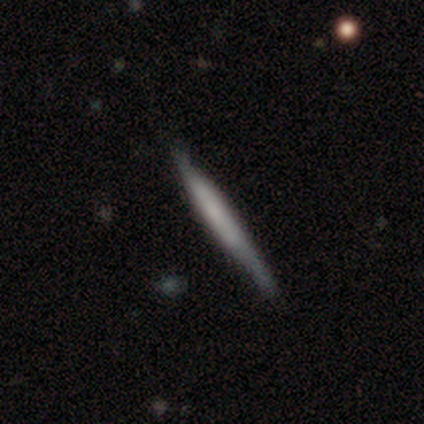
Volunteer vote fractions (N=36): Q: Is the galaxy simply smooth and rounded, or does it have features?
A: smooth — 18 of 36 (50%).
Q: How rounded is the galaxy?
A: cigar-shaped — 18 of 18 (100%).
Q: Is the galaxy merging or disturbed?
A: none — 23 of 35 (66%).